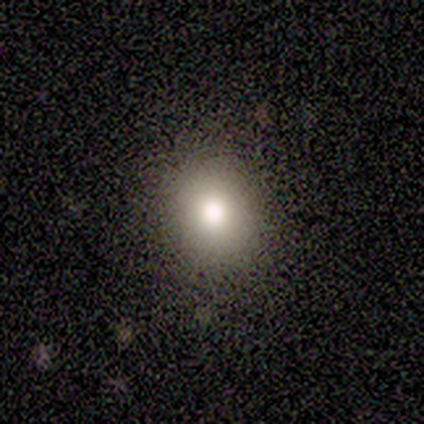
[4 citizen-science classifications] This appears to be a smooth galaxy with no disk features (100%) that is round (75%). Merging: none (75%).